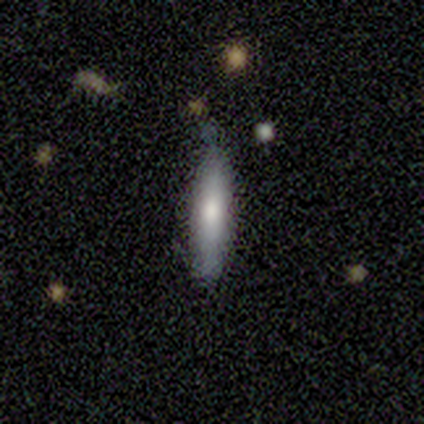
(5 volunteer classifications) Smooth or featured? smooth (80%)
How rounded? cigar-shaped (100%)
Merging? none (60%)